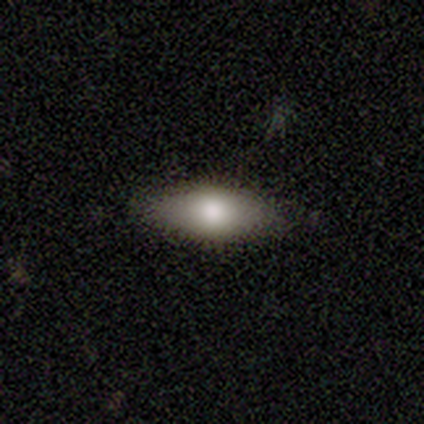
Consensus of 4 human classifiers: A smooth galaxy with no disk features (100%) that is in between round and cigar-shaped (50%).

Vote fractions:
- Smooth or featured? smooth: 100% / featured or disk: 0% / star or artifact: 0%
- How rounded? in between: 50% / round: 25% / cigar-shaped: 25%
- Merging? none: 50% (tied) / minor disturbance: 50% (tied) / major disturbance: 0% / merger: 0%